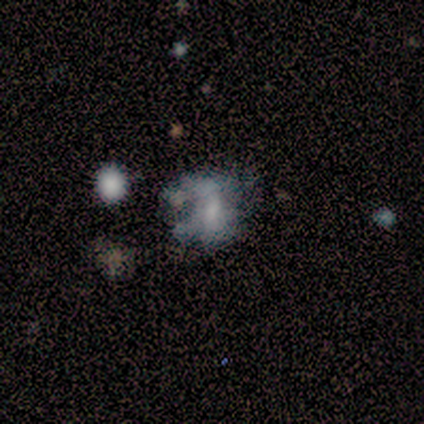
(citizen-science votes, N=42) Morphology: type=featured or disk (50%); edge-on=no (100%); bar=no (62%); spiral arms=no (95%); bulge=none (48%); merging=major disturbance (41%).